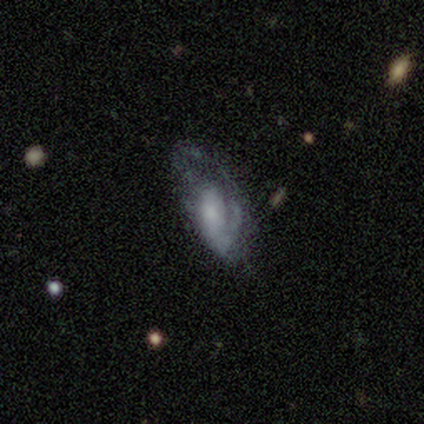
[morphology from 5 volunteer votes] Q: Smooth or featured?
A: featured or disk (80%); runner-up: smooth (20%)
Q: Edge-on disk?
A: no (100%)
Q: Bar?
A: no (50%); runner-up: strong (25%)
Q: Spiral arms?
A: no (75%); runner-up: yes (25%)
Q: Bulge size?
A: small (75%); runner-up: large (25%)
Q: Merging?
A: major disturbance (60%); runner-up: minor disturbance (40%)